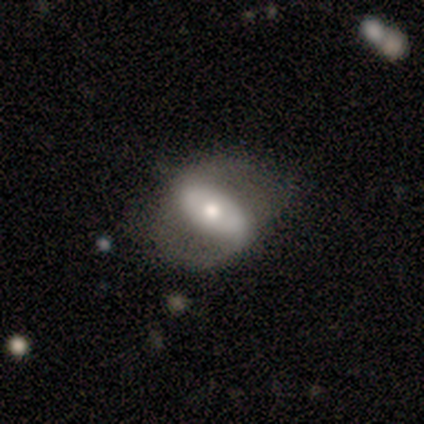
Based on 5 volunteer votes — Smooth or featured? 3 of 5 (60%) said featured or disk. Edge-on disk? 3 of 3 (100%) said no. Bar? 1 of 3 (33%, tied with weak and no) said strong. Spiral arms? 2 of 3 (67%) said yes. Spiral winding? 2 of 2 (100%) said loose. Spiral arm count? 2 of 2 (100%) said 2. Bulge size? 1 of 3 (33%, tied with moderate and small) said large. Merging? 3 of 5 (60%) said none.